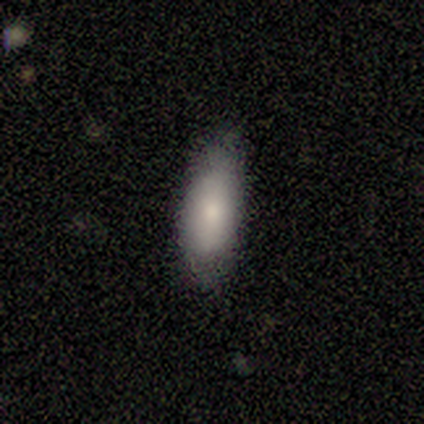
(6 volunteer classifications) A smooth galaxy with no disk features (83%) that is in between round and cigar-shaped (80%).

Vote fractions:
- Smooth or featured? smooth: 83% / featured or disk: 17% / star or artifact: 0%
- How rounded? in between: 80% / cigar-shaped: 20% / round: 0%
- Merging? none: 83% / minor disturbance: 17% / major disturbance: 0% / merger: 0%